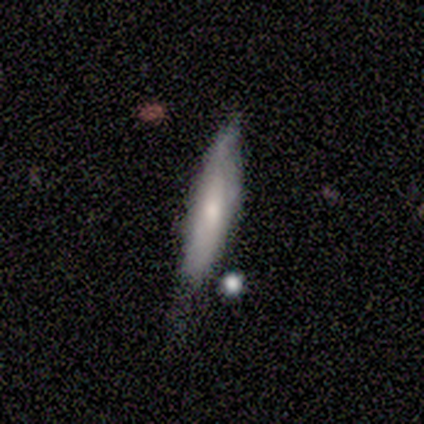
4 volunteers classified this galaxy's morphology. Smooth or featured: smooth — 50% (tied with featured or disk — 50%)
How rounded: cigar-shaped — 100%
Merging: none — 50% (minor disturbance — 25%)